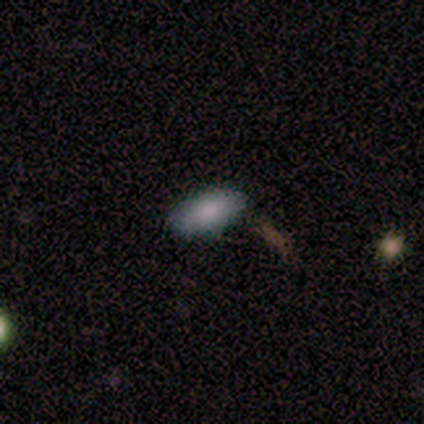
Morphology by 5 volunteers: Smooth or featured: smooth — 80% (featured or disk — 20%)
How rounded: in between — 50% (tied with cigar-shaped — 50%)
Merging: none — 100%